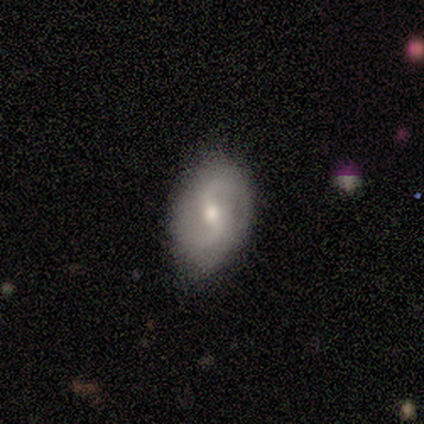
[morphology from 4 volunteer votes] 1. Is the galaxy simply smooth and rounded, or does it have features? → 100% featured or disk, 0% smooth, 0% star or artifact.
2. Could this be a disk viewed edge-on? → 100% no, 0% yes.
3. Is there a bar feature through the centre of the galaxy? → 50% weak (tied), 50% no (tied), 0% strong.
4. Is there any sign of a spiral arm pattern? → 100% yes, 0% no.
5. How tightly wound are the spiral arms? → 75% loose, 25% medium, 0% tight.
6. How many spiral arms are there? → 100% 2, 0% 1, 0% 3, 0% 4, 0% more than 4, 0% can't tell.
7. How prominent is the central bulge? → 100% moderate, 0% dominant, 0% large, 0% small, 0% none.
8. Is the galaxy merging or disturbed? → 50% none (tied), 50% minor disturbance (tied), 0% major disturbance, 0% merger.